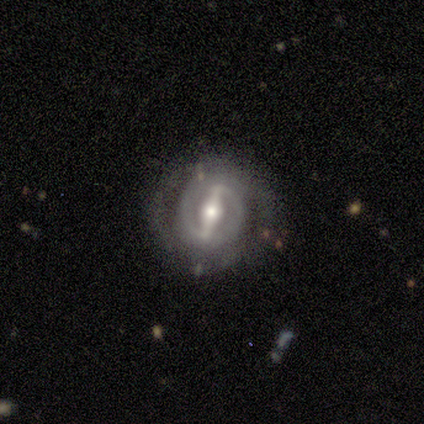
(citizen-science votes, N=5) Smooth or featured? featured or disk (100%)
Edge-on disk? no (100%)
Bar? strong (100%)
Spiral arms? yes (100%)
Spiral winding? tight (60%)
Spiral arm count? 2 (40%, tied with can't tell)
Bulge size? moderate (60%)
Merging? none (100%)